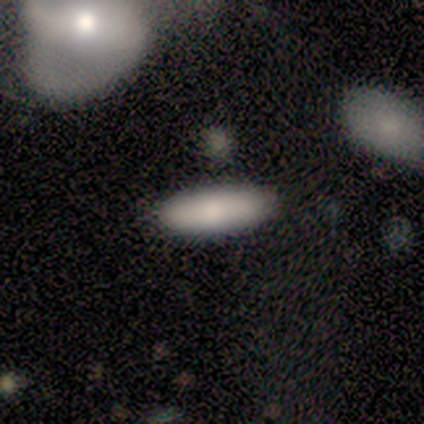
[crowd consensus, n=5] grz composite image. It shows a smooth galaxy with no disk features (100%) that is cigar-shaped (60%). Merging: none (100%).